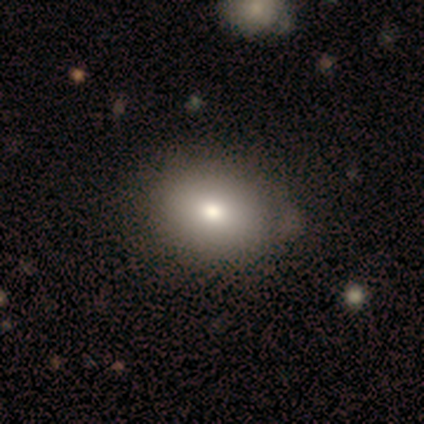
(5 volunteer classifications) Smooth or featured?
  - smooth: 80% *
  - featured or disk: 20%
  - star or artifact: 0%
How rounded?
  - in between: 75% *
  - round: 25%
  - cigar-shaped: 0%
Merging?
  - none: 60% *
  - minor disturbance: 20%
  - merger: 20%
  - major disturbance: 0%